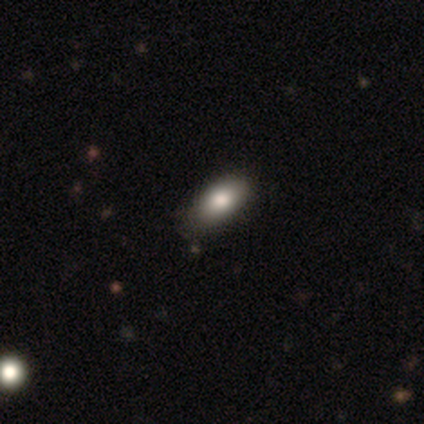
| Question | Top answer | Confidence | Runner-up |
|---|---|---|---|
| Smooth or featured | smooth | 60% | star or artifact (40%) |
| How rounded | in between | 100% | — |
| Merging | none | 100% | — |